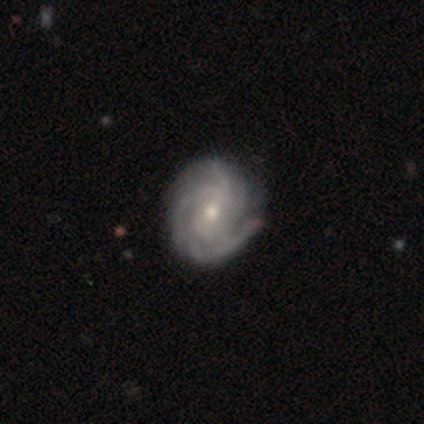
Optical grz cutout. It shows a featured or disk galaxy (95%) with no bar (58%), 3 (43%) tight (70%) spiral arms (97%) and a moderate central bulge (61%). Merging: none (56%).